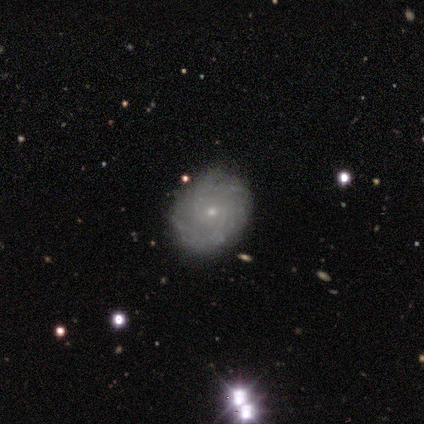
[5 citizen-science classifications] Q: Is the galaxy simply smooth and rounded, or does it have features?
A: featured or disk — 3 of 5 (60%).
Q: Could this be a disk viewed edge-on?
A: no — 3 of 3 (100%).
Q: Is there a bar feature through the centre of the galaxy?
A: no — 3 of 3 (100%).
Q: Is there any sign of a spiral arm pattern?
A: yes — 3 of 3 (100%).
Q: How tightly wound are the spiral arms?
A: tight — 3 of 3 (100%).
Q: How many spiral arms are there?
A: can't tell — 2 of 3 (67%).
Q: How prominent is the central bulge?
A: small — 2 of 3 (67%).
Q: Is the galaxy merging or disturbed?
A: none — 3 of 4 (75%).